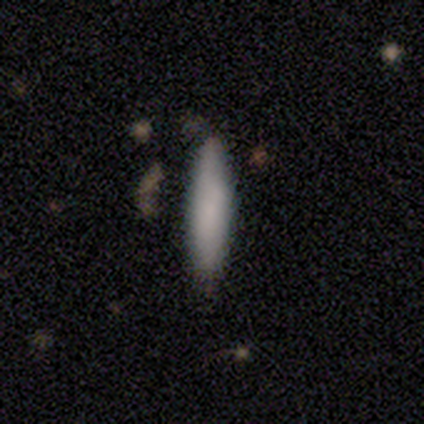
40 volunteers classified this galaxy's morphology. smooth-or-featured: smooth: 78% | featured or disk: 18% | star or artifact: 5%
  how-rounded: cigar-shaped: 77% | in between: 23% | round: 0%
  merging: none: 79% | minor disturbance: 18% | major disturbance: 3% | merger: 0%